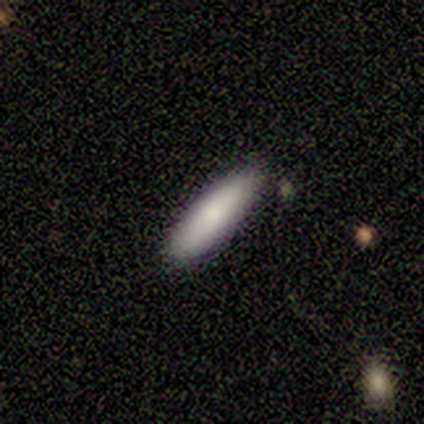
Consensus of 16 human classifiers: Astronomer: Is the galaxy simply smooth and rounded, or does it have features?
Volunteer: smooth — 81%.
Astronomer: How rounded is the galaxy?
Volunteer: cigar-shaped — 77%.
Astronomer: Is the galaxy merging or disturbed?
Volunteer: none — 80%.